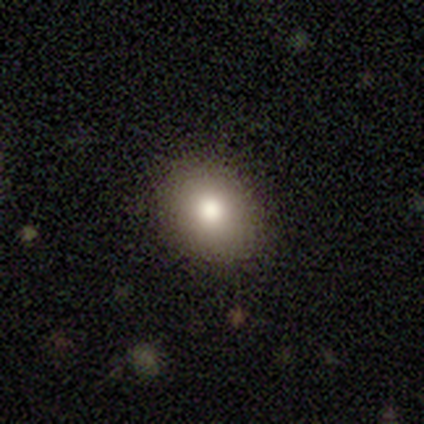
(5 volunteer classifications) This is clearly a smooth galaxy (80%). How rounded: possibly round (50%, tied with in between). Merging: likely none (75%).